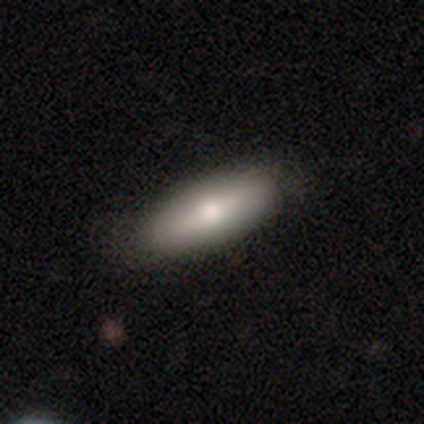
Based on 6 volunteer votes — Q: Smooth or featured?
A: smooth (50%); tied with: featured or disk (50%)
Q: How rounded?
A: in between (100%)
Q: Merging?
A: none (50%); tied with: minor disturbance (50%)